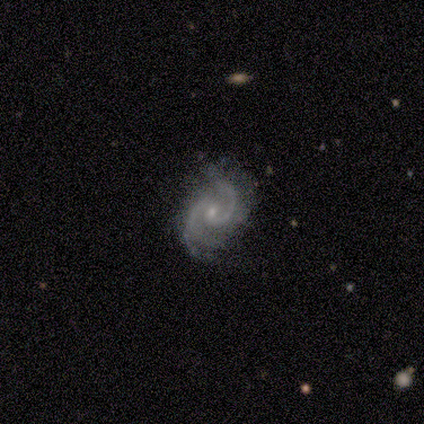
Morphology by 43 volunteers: This is clearly a featured or disk galaxy (95%). It is clearly not viewed edge-on (95%). Bar: possibly no (49%). Spiral arm pattern: clearly yes (100%). Spiral arm count: clearly 2 (82%). Spiral winding: likely medium (67%). Central bulge: likely small (64%). Merging: likely none (71%).